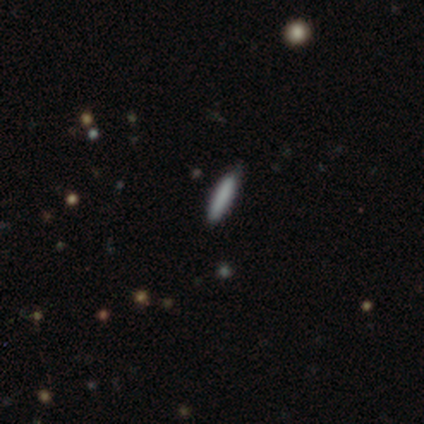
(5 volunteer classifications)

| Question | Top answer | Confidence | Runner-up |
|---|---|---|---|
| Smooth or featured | smooth | 100% | — |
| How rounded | cigar-shaped | 80% | in between (20%) |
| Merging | none | 80% | minor disturbance (20%) |